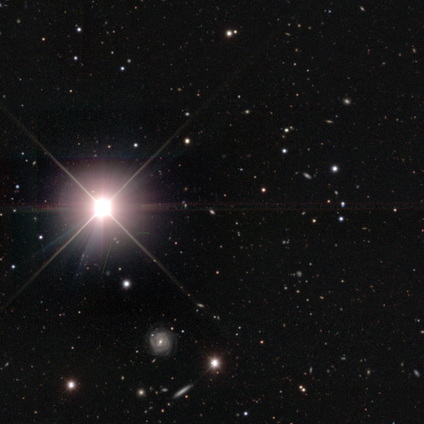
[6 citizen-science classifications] star or artifact 100%, smooth 0%, featured or disk 0%.